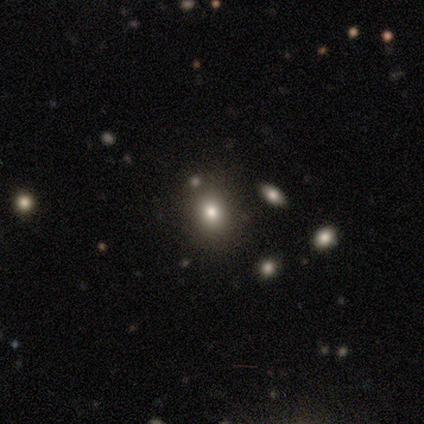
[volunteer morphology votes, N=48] type=smooth (62%); roundness=round (70%); merging=none (88%).